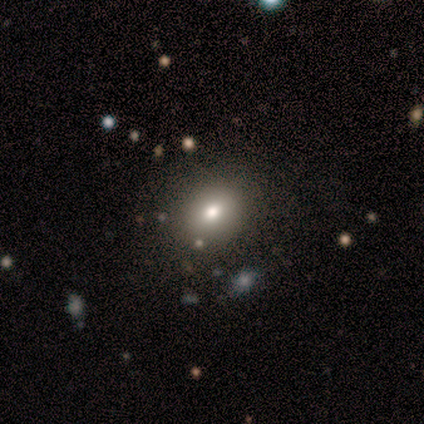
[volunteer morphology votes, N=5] smooth-or-featured: smooth: 100% | featured or disk: 0% | star or artifact: 0%
  how-rounded: round: 60% | in between: 40% | cigar-shaped: 0%
  merging: none: 80% | minor disturbance: 20% | major disturbance: 0% | merger: 0%